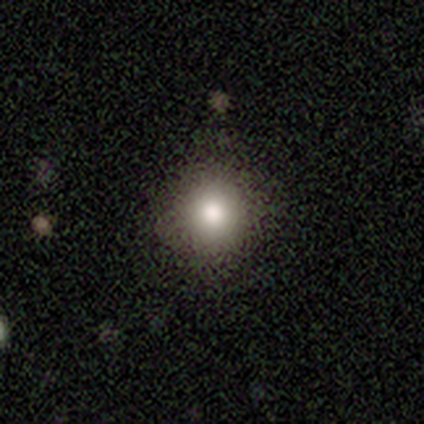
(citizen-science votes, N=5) Smooth or featured: smooth — 80% (star or artifact — 20%)
How rounded: round — 100%
Merging: none — 50% (tied with minor disturbance — 50%)